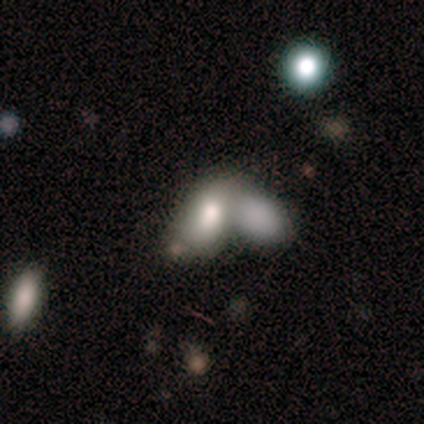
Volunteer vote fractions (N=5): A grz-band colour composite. It shows a smooth galaxy with no disk features (100%) that is in between round and cigar-shaped (100%). Merging: merger (100%).